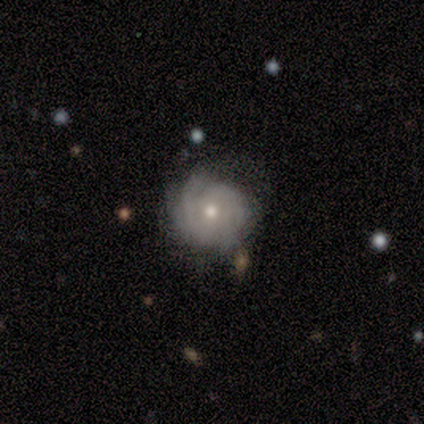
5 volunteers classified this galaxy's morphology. Smooth or featured: featured or disk — 40% (tied with star or artifact — 40%)
Edge-on disk: no — 100%
Bar: no — 100%
Spiral arms: yes — 50% (tied with no — 50%)
Spiral winding: loose — 100%
Spiral arm count: 2 — 100%
Bulge size: moderate — 100%
Merging: none — 33% (tied with minor disturbance — 33%; major disturbance — 33%)